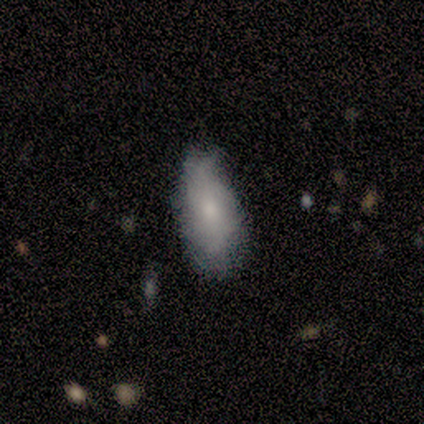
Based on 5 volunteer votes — This appears to be a featured or disk galaxy (60%) with no bar (100%), no spiral arms (67%) and a moderate central bulge (67%). Merging: none (60%).